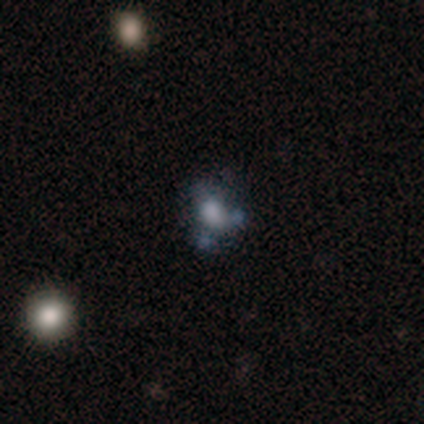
featured or disk 46%, smooth 36%, star or artifact 18%. Down the decision tree: edge-on disk — no (100%); bar — no (94%); spiral arms — no (94%); bulge size — large (39%); merging — none (41%).